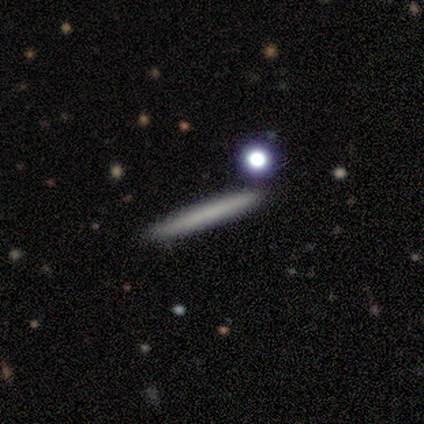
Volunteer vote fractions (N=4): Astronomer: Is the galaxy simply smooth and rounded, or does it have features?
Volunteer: featured or disk — 75%.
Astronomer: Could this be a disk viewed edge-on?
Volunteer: yes — 100%.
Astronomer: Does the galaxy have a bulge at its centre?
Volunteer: none — 100%.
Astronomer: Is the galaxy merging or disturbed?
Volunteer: none — 75%.